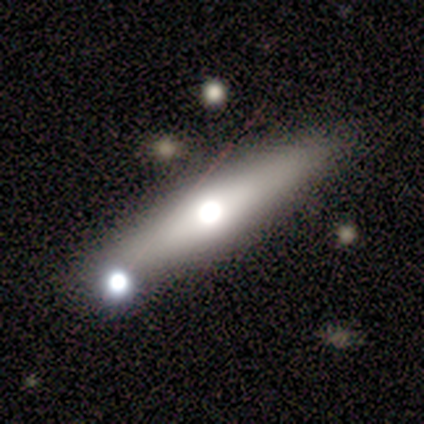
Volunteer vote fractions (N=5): A featured or disk galaxy (80%) viewed edge-on (75%) with a rounded central bulge (67%).

Vote fractions:
- Smooth or featured? featured or disk: 80% / smooth: 20% / star or artifact: 0%
- Edge-on disk? yes: 75% / no: 25%
- Edge-on bulge? rounded: 67% / none: 33% / boxy: 0%
- Merging? none: 100% / minor disturbance: 0% / major disturbance: 0% / merger: 0%